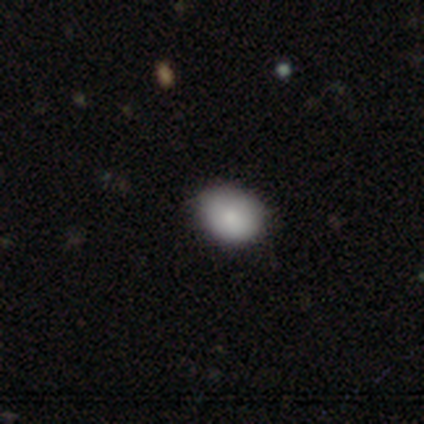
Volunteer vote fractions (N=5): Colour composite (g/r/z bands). It shows a smooth galaxy with no disk features (100%) that is in between round and cigar-shaped (80%). Merging: none (60%).